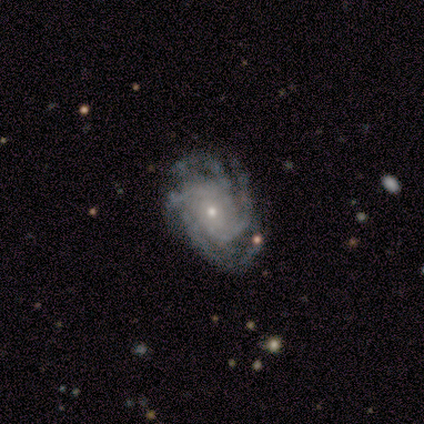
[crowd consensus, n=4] Smooth or featured?
  - featured or disk: 100% *
  - smooth: 0%
  - star or artifact: 0%
Edge-on disk?
  - no: 100% *
  - yes: 0%
Bar?
  - no: 100% *
  - strong: 0%
  - weak: 0%
Spiral arms?
  - yes: 100% *
  - no: 0%
Spiral winding?
  - tight: 50% * (tied)
  - medium: 50% * (tied)
  - loose: 0%
Spiral arm count?
  - 4: 75% *
  - 3: 25%
  - 1: 0%
  - 2: 0%
  - more than 4: 0%
  - can't tell: 0%
Bulge size?
  - small: 75% *
  - moderate: 25%
  - dominant: 0%
  - large: 0%
  - none: 0%
Merging?
  - none: 50% * (tied)
  - minor disturbance: 50% * (tied)
  - major disturbance: 0%
  - merger: 0%